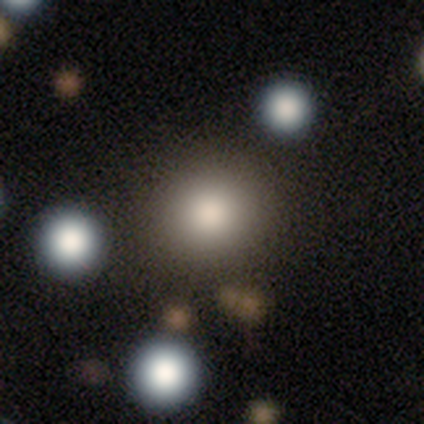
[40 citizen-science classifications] smooth-or-featured: smooth: 88% | star or artifact: 10% | featured or disk: 2%
  how-rounded: round: 94% | in between: 6% | cigar-shaped: 0%
  merging: none: 86% | minor disturbance: 11% | merger: 3% | major disturbance: 0%